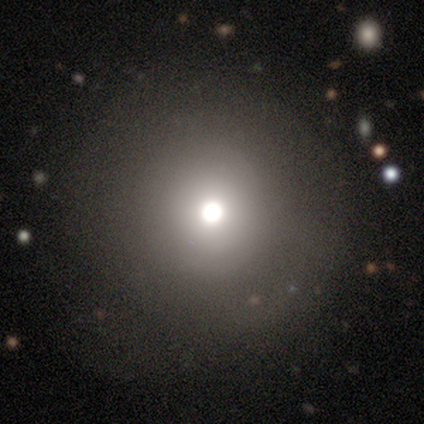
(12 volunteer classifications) Overall: smooth (50%; star or artifact 33%). How rounded: round (100%). Merging: none (50%, tied with minor disturbance).